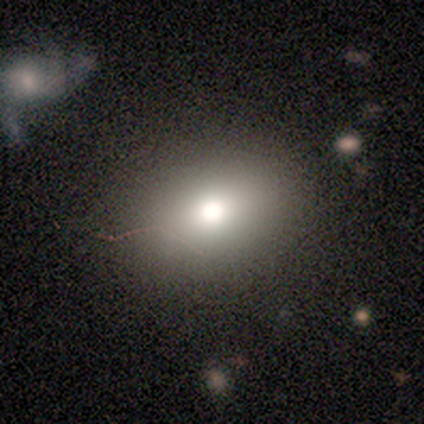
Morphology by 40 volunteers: A smooth galaxy with no disk features (82%) that is in between round and cigar-shaped (73%). Merging: none (87%).